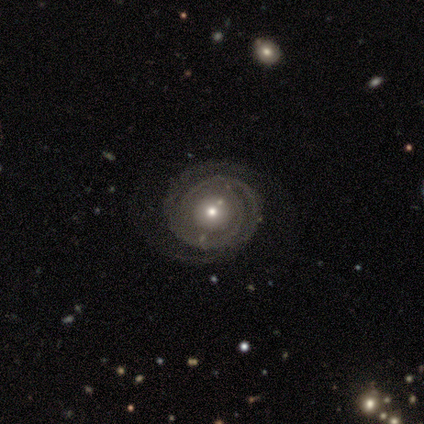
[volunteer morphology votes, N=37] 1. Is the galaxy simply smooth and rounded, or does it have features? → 89% featured or disk, 11% smooth, 0% star or artifact.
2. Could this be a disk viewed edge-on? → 100% no, 0% yes.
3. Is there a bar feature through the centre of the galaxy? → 85% no, 9% weak, 6% strong.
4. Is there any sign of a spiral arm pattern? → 82% yes, 18% no.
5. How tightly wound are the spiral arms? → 70% tight, 26% medium, 4% loose.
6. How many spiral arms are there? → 56% 2, 22% 3, 19% can't tell, 4% 4, 0% 1, 0% more than 4.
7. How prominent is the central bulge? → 64% moderate, 33% small, 3% large, 0% dominant, 0% none.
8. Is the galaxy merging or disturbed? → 78% none, 16% minor disturbance, 3% major disturbance, 3% merger.